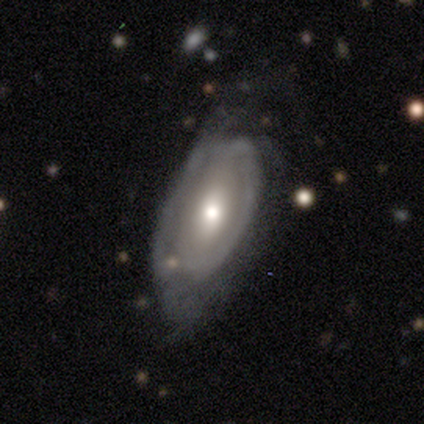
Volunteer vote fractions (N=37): Smooth or featured?
  - featured or disk: 54% *
  - smooth: 41%
  - star or artifact: 5%
Edge-on disk?
  - no: 95% *
  - yes: 5%
Bar?
  - no: 53% *
  - weak: 42%
  - strong: 5%
Spiral arms?
  - yes: 74% *
  - no: 26%
Spiral winding?
  - tight: 43% *
  - medium: 29%
  - loose: 29%
Spiral arm count?
  - 2: 43% *
  - can't tell: 36%
  - 1: 14%
  - 3: 7%
  - 4: 0%
  - more than 4: 0%
Bulge size?
  - moderate: 68% *
  - small: 26%
  - large: 5%
  - dominant: 0%
  - none: 0%
Merging?
  - minor disturbance: 37% *
  - major disturbance: 31%
  - none: 26%
  - merger: 6%